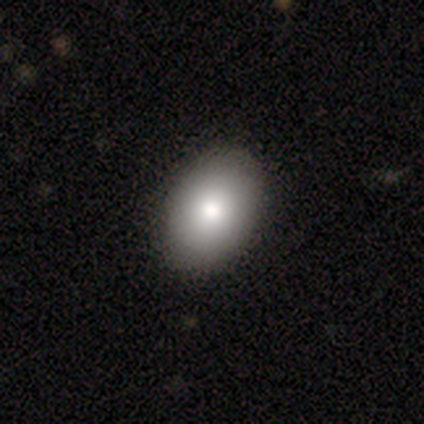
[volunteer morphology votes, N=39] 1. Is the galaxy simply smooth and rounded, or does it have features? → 72% smooth, 15% star or artifact, 13% featured or disk.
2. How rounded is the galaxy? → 89% in between, 7% round, 4% cigar-shaped.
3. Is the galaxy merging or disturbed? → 88% none, 9% minor disturbance, 3% major disturbance, 0% merger.